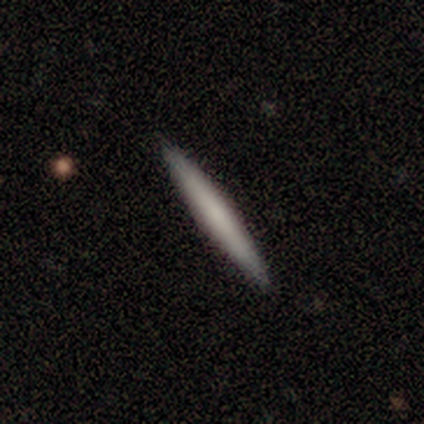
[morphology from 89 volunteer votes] Volunteers were most divided on "smooth or featured": smooth: 60%, featured or disk: 35%, star or artifact: 6%. More confident: how rounded — cigar-shaped (94%); merging — none (90%).